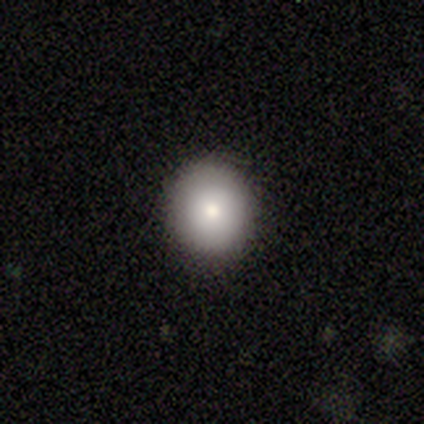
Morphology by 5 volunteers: smooth_or_featured: smooth (p=0.80) [alt: star or artifact p=0.20]
how_rounded: round (p=1.00)
merging: none (p=1.00)